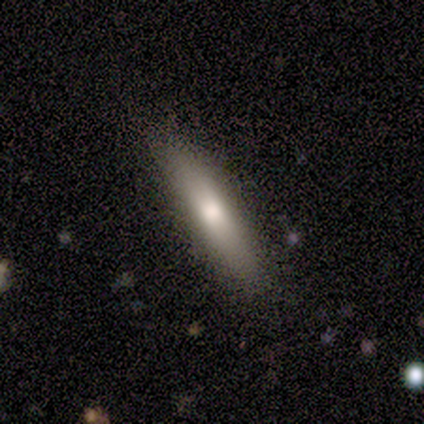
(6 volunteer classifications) Smooth or featured: smooth — 67% (featured or disk — 33%)
How rounded: cigar-shaped — 100%
Merging: none — 83% (minor disturbance — 17%)